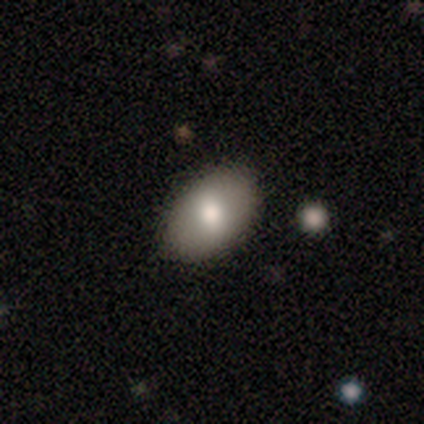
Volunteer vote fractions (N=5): A smooth galaxy with no disk features (60%) that is in between round and cigar-shaped (100%). Merging: none (100%).